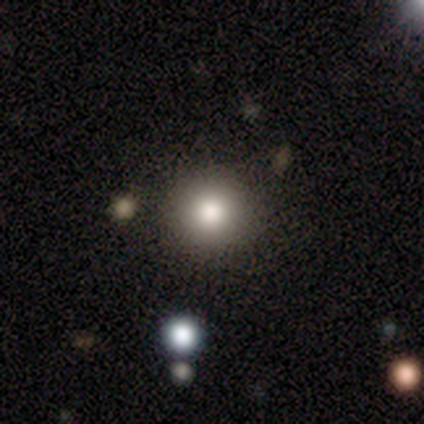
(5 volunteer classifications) A smooth galaxy with no disk features (60%) that is round (100%).

Vote fractions:
- Smooth or featured? smooth: 60% / featured or disk: 20% / star or artifact: 20%
- How rounded? round: 100% / in between: 0% / cigar-shaped: 0%
- Merging? none: 75% / major disturbance: 25% / minor disturbance: 0% / merger: 0%